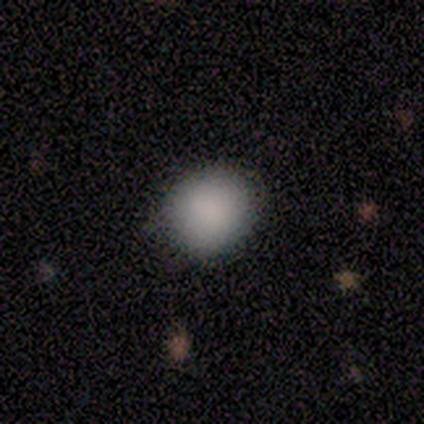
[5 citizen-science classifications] Morphology: type=smooth (100%); roundness=round (80%); merging=none (100%).